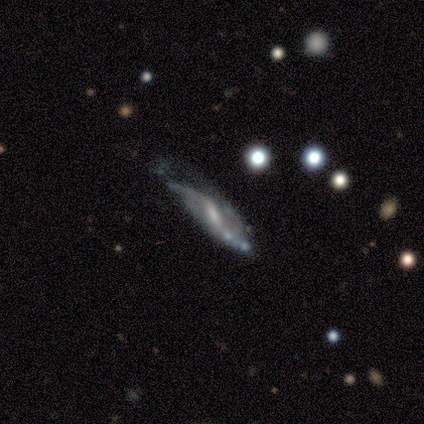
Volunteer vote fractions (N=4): Volunteers were most divided on "merging" (2-way tie): none: 50%, minor disturbance: 50%, major disturbance: 0%, merger: 0%. More confident: smooth or featured — featured or disk (100%); edge-on disk — no (100%); bar — weak (100%); spiral winding — loose (100%); spiral arm count — 2 (100%); spiral arms — yes (75%); bulge size — small (50%).